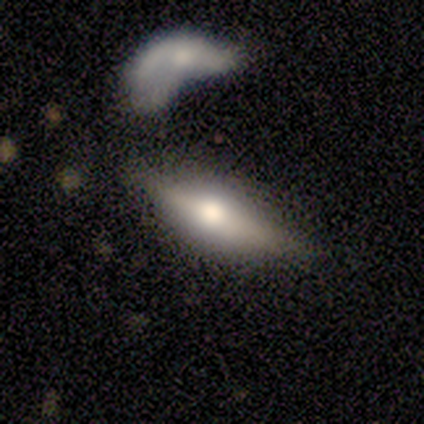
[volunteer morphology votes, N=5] smooth-or-featured: featured or disk: 80% | smooth: 20% | star or artifact: 0%
  disk-edge-on: yes: 100% | no: 0%
    edge-on-bulge: rounded: 100% | boxy: 0% | none: 0%
  merging: none: 60% | minor disturbance: 20% | merger: 20% | major disturbance: 0%